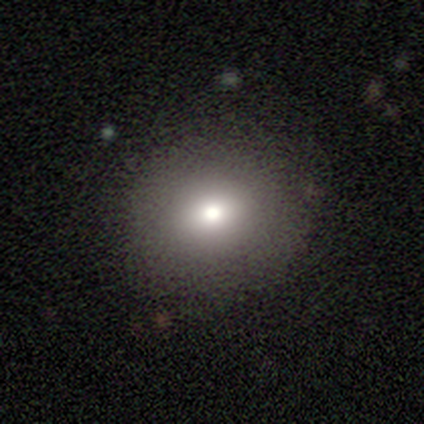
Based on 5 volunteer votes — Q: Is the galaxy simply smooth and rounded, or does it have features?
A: smooth — 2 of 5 (40%, tied with star or artifact).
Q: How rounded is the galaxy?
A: round — 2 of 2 (100%).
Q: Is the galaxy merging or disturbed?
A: none — 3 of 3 (100%).